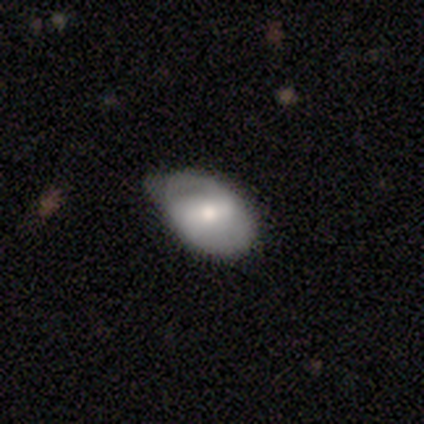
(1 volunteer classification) A smooth galaxy with no disk features (100%) that is round (100%). Merging: minor disturbance (100%).